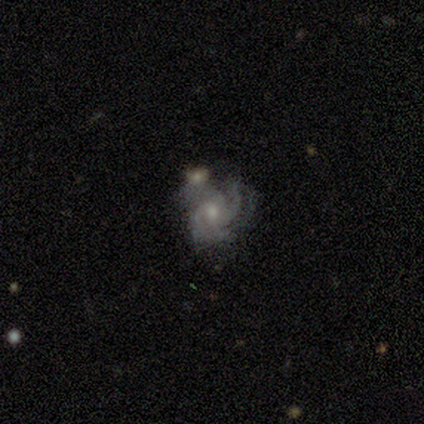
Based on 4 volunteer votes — Overall: featured or disk (100%). Edge-on disk: no (100%). Bar: no (75%). Spiral arms: yes (100%). Spiral arm count: 3 (75%). Spiral winding: medium (75%). Bulge size: moderate (50%, tied with small). Merging: none (50%; minor disturbance 25%).